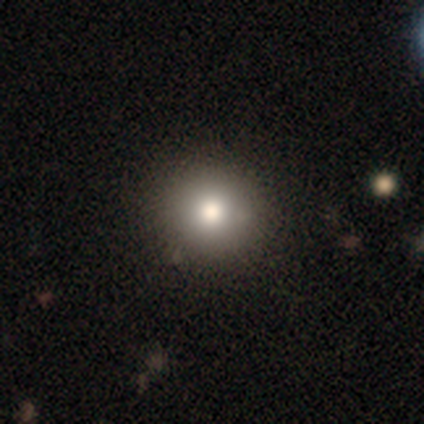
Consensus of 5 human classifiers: Morphology: type=smooth (60%); roundness=round (100%); merging=none (33%, tied with minor disturbance and major disturbance).